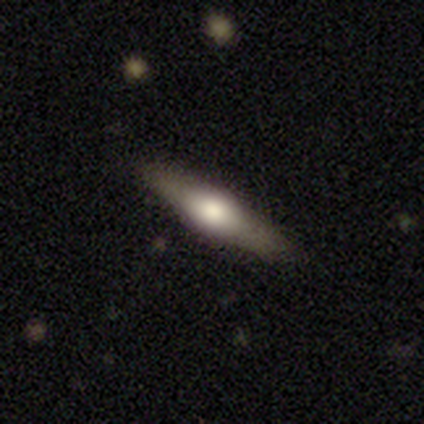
Smooth or featured? featured or disk (68%)
Edge-on disk? yes (89%)
Edge-on bulge? rounded (92%)
Merging? none (86%)